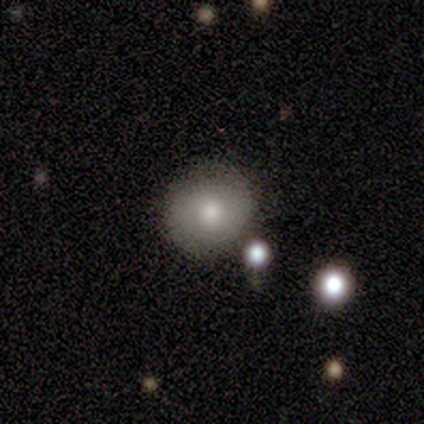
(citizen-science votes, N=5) smooth 80%, featured or disk 20%, star or artifact 0%. Down the decision tree: how rounded — round (100%); merging — none (60%).